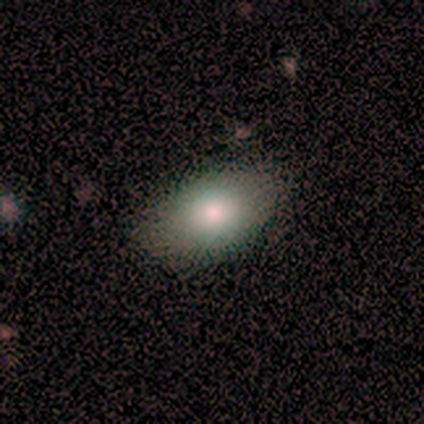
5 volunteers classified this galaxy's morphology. Smooth or featured: smooth — 100%
How rounded: in between — 100%
Merging: none — 100%